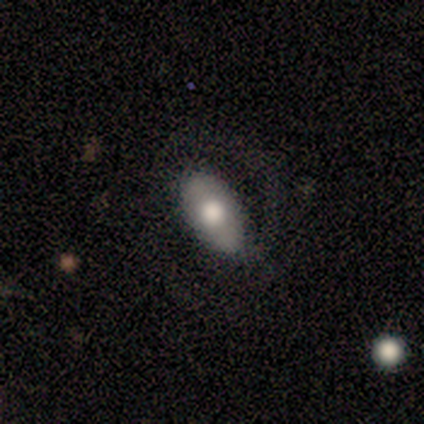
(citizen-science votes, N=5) smooth-or-featured: smooth: 80% | featured or disk: 20% | star or artifact: 0%
  how-rounded: in between: 100% | round: 0% | cigar-shaped: 0%
  merging: none: 60% | minor disturbance: 40% | major disturbance: 0% | merger: 0%